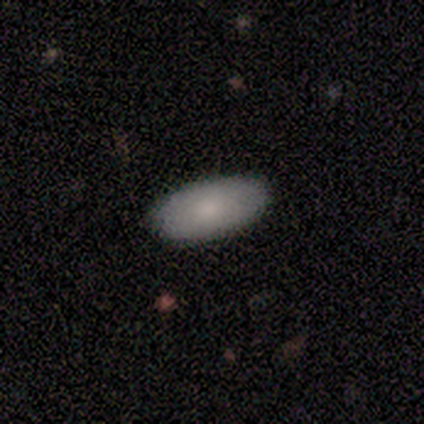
smooth_or_featured: smooth (p=0.86) [alt: featured or disk p=0.14]
how_rounded: in between (p=0.94) [alt: cigar-shaped p=0.06]
merging: none (p=0.89) [alt: minor disturbance p=0.11]